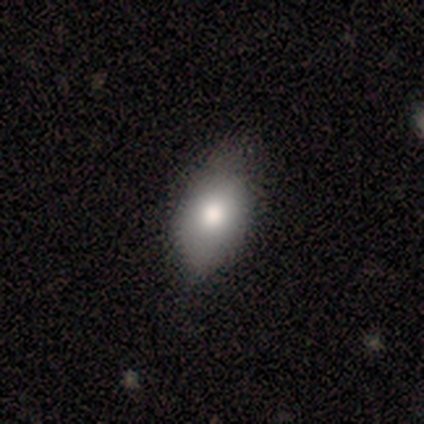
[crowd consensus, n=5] This is clearly a smooth galaxy (80%). How rounded: clearly in between (100%). Merging: clearly minor disturbance (80%).